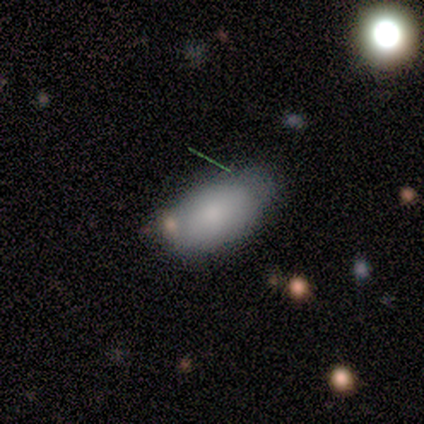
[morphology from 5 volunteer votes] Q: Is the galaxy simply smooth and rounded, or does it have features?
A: smooth — 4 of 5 (80%).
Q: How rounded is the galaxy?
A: in between — 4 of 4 (100%).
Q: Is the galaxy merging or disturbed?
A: none — 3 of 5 (60%).